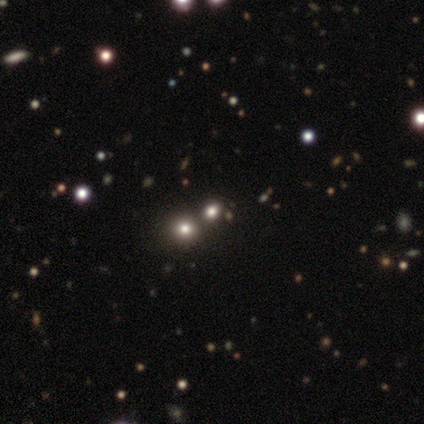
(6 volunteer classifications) Smooth or featured?
  - smooth: 67% *
  - star or artifact: 33%
  - featured or disk: 0%
How rounded?
  - round: 100% *
  - in between: 0%
  - cigar-shaped: 0%
Merging?
  - none: 75% *
  - merger: 25%
  - minor disturbance: 0%
  - major disturbance: 0%